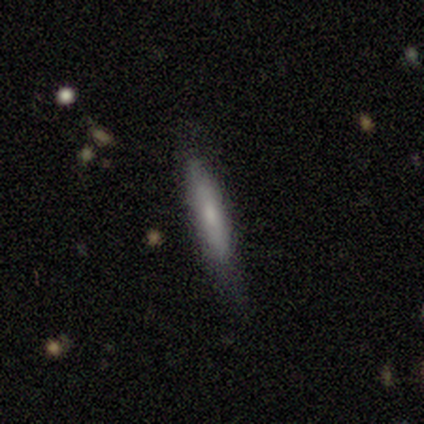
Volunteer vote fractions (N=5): This is clearly a smooth galaxy (80%). How rounded: clearly cigar-shaped (100%). Merging: marginally none (40%, tied with minor disturbance).